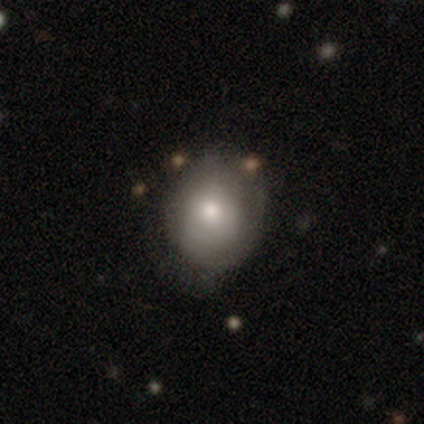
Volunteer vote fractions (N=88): Smooth or featured?
  - smooth: 74% *
  - featured or disk: 18%
  - star or artifact: 8%
How rounded?
  - round: 72% *
  - in between: 26%
  - cigar-shaped: 2%
Merging?
  - none: 57% *
  - minor disturbance: 27%
  - major disturbance: 14%
  - merger: 2%